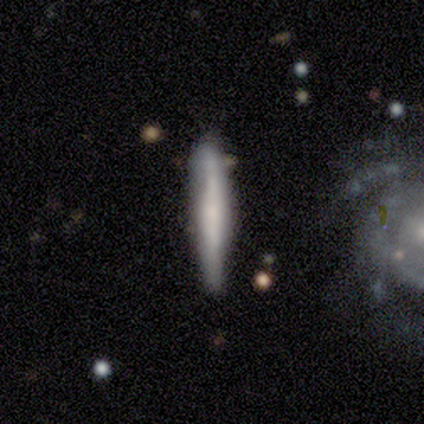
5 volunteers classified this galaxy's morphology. smooth-or-featured: smooth: 100% | featured or disk: 0% | star or artifact: 0%
  how-rounded: cigar-shaped: 100% | round: 0% | in between: 0%
  merging: none: 60% | major disturbance: 20% | merger: 20% | minor disturbance: 0%